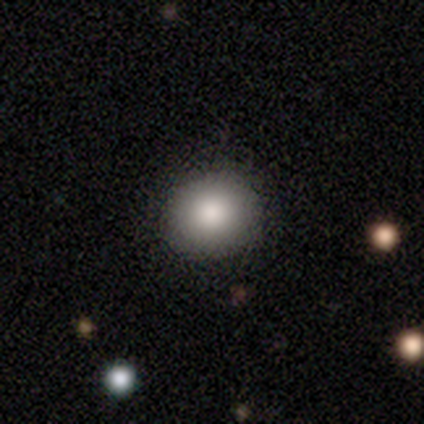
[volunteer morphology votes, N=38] A smooth galaxy with no disk features (100%) that is round (84%). Merging: none (87%).